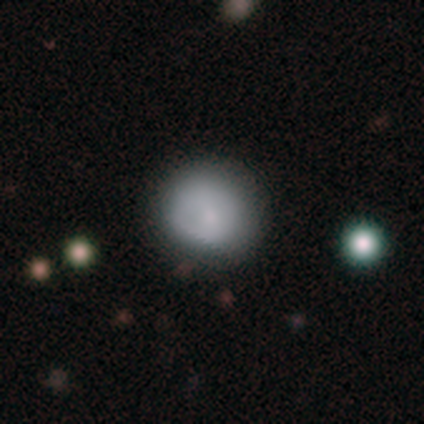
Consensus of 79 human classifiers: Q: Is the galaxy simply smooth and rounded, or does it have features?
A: smooth — 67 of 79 (85%).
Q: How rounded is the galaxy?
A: round — 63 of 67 (94%).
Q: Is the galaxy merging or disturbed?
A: none — 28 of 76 (37%).